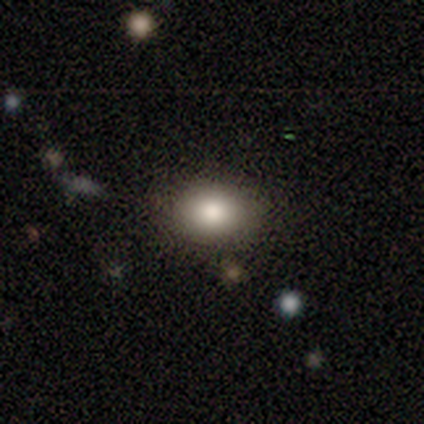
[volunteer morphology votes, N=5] Smooth or featured: smooth — 100%
How rounded: in between — 80% (round — 20%)
Merging: none — 100%